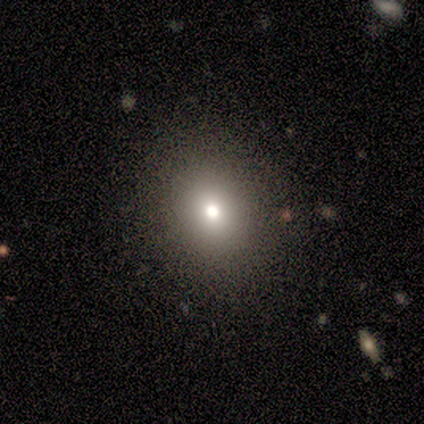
Smooth or featured? smooth (80%)
How rounded? round (50%, tied with in between)
Merging? none (100%)